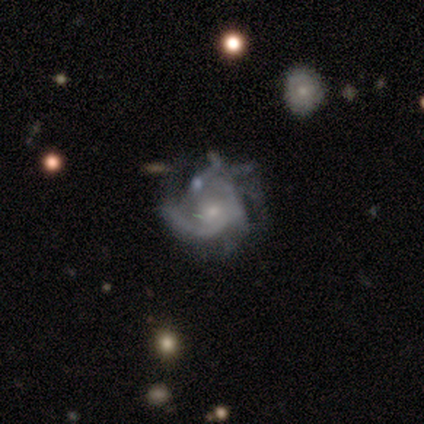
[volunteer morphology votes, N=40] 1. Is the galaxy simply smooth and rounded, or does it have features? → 95% featured or disk, 5% smooth, 0% star or artifact.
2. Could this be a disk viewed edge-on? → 97% no, 3% yes.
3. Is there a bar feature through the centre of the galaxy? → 89% no, 11% weak, 0% strong.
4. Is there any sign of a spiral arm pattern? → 95% yes, 5% no.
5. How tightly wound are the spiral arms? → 40% medium, 34% loose, 26% tight.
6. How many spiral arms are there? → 46% can't tell, 17% 2, 14% 1, 11% 4, 9% 3, 3% more than 4.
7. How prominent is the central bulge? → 62% small, 27% moderate, 11% none, 0% dominant, 0% large.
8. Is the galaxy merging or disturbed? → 32% none (tied), 32% major disturbance (tied), 18% minor disturbance, 18% merger.